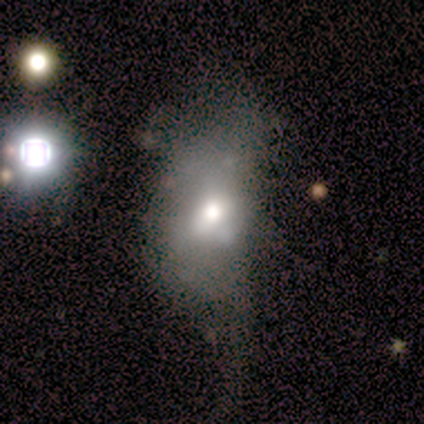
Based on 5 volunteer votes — Morphology: type=smooth (60%); roundness=in between (100%); merging=none (60%).